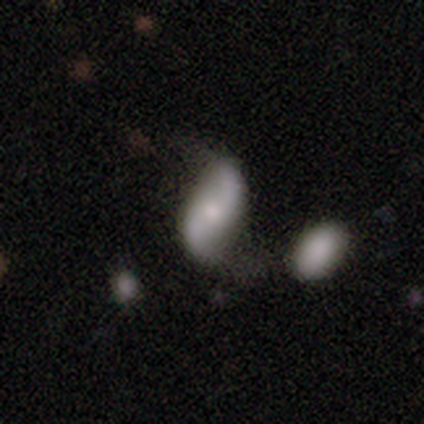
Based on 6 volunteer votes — A featured or disk galaxy (83%) with no bar (80%), 2 (100%) loose (80%) spiral arms (100%) and a small central bulge (40%, tied with none).

Vote fractions:
- Smooth or featured? featured or disk: 83% / smooth: 17% / star or artifact: 0%
- Edge-on disk? no: 100% / yes: 0%
- Bar? no: 80% / weak: 20% / strong: 0%
- Spiral arms? yes: 100% / no: 0%
- Spiral winding? loose: 80% / medium: 20% / tight: 0%
- Spiral arm count? 2: 100% / 1: 0% / 3: 0% / 4: 0% / more than 4: 0% / can't tell: 0%
- Bulge size? small: 40% (tied) / none: 40% (tied) / moderate: 20% / dominant: 0% / large: 0%
- Merging? none: 67% / minor disturbance: 17% / merger: 17% / major disturbance: 0%